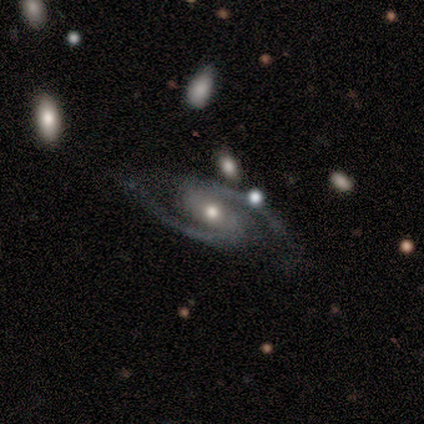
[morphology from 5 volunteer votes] Overall: featured or disk (100%). Edge-on disk: no (100%). Bar: strong (60%; weak 20%). Spiral arms: yes (100%). Spiral arm count: 2 (100%). Spiral winding: medium (60%; tight 20%). Bulge size: moderate (80%). Merging: none (80%).